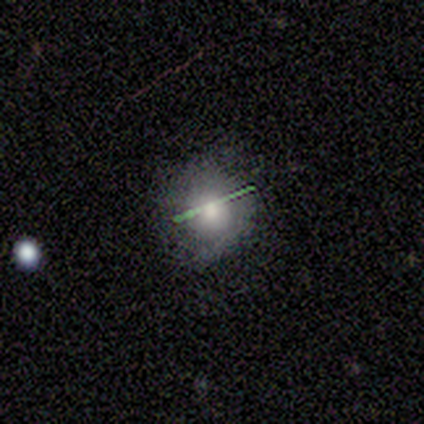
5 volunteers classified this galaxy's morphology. type=smooth (60%); roundness=round (100%); merging=none (80%).